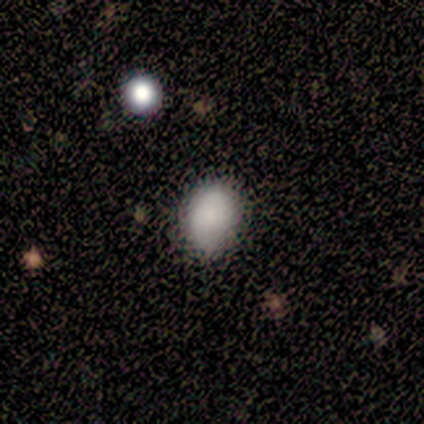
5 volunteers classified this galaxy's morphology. A smooth galaxy with no disk features (100%) that is in between round and cigar-shaped (80%). Merging: none (60%).